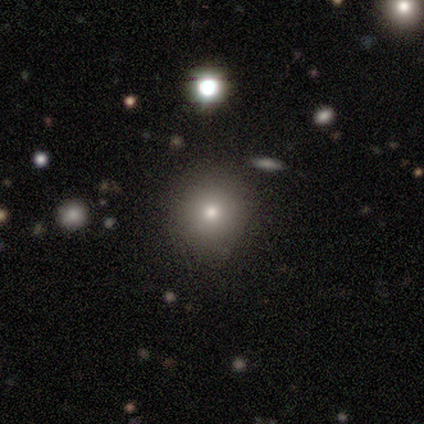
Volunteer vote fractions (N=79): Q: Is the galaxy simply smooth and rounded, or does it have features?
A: smooth — 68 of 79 (86%).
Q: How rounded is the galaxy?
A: round — 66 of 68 (97%).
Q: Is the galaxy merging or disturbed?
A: none — 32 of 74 (43%).